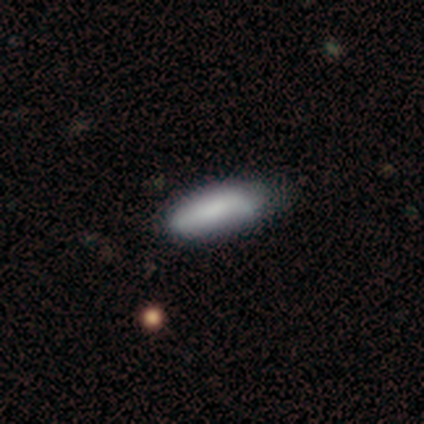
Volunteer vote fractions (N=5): Smooth or featured?
  - smooth: 80% *
  - star or artifact: 20%
  - featured or disk: 0%
How rounded?
  - in between: 75% *
  - cigar-shaped: 25%
  - round: 0%
Merging?
  - none: 100% *
  - minor disturbance: 0%
  - major disturbance: 0%
  - merger: 0%